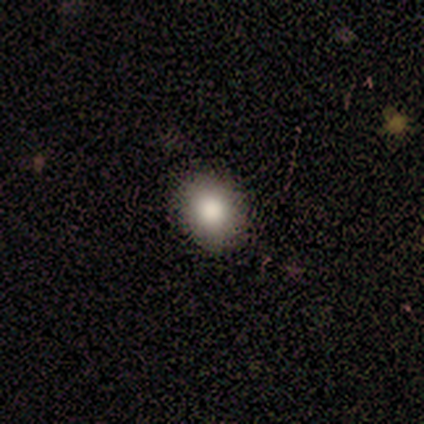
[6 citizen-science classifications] Smooth or featured? smooth (100%)
How rounded? round (67%)
Merging? none (100%)